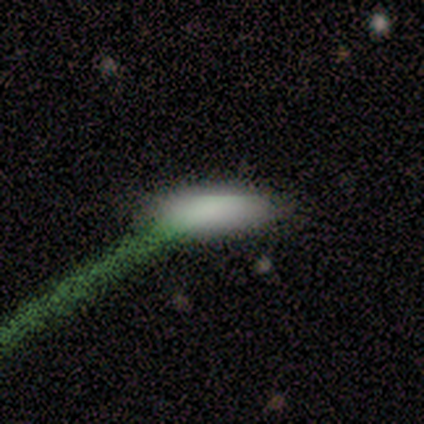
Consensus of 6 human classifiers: Q: Smooth or featured?
A: smooth (33%); tied with: featured or disk (33%); star or artifact (33%)
Q: How rounded?
A: in between (50%); tied with: cigar-shaped (50%)
Q: Merging?
A: none (75%); runner-up: major disturbance (25%)